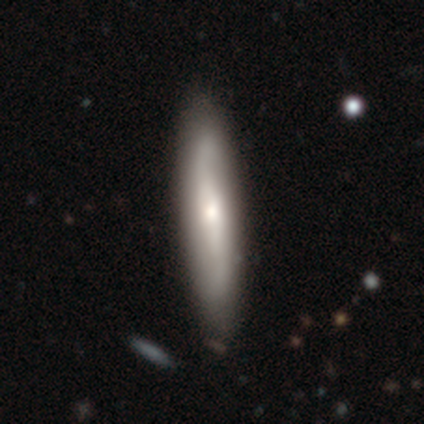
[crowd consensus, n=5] smooth_or_featured: featured or disk (p=0.40) [tied with: star or artifact p=0.40]
disk_edge_on: yes (p=1.00)
edge_on_bulge: rounded (p=1.00)
merging: none (p=1.00)